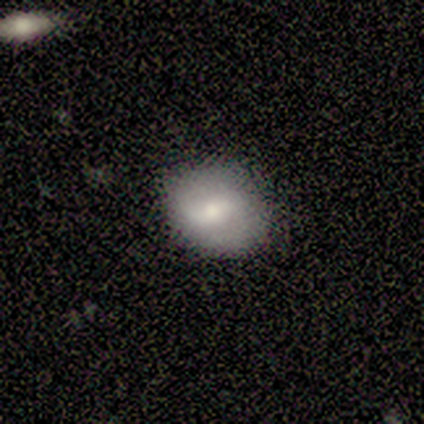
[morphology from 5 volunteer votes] Smooth or featured: smooth — 80% (star or artifact — 20%)
How rounded: round — 50% (tied with in between — 50%)
Merging: none — 75% (minor disturbance — 25%)